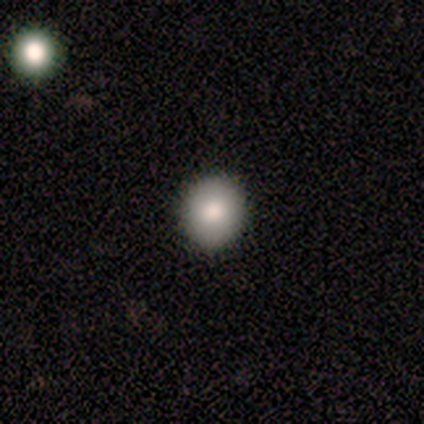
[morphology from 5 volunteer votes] smooth 60%, featured or disk 20%, star or artifact 20%. Down the decision tree: how rounded — round (100%); merging — none (100%).